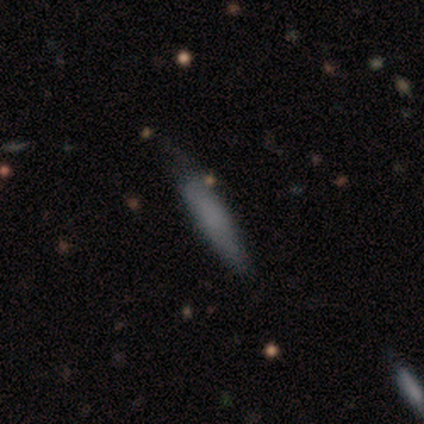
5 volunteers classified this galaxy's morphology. Overall: smooth (60%; featured or disk 40%). How rounded: cigar-shaped (67%; in between 33%). Merging: minor disturbance (60%; none 20%).